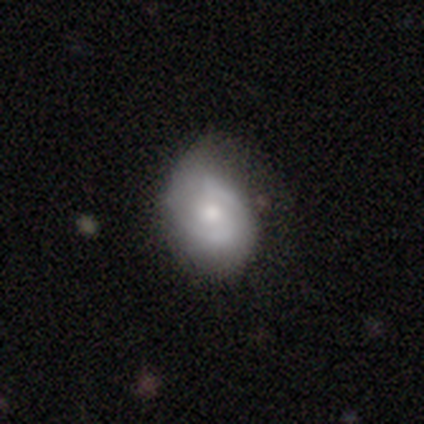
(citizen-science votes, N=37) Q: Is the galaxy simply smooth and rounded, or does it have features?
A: featured or disk — 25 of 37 (68%).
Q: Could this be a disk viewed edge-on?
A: no — 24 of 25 (96%).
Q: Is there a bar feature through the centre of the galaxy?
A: no — 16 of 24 (67%).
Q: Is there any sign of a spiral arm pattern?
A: yes — 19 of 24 (79%).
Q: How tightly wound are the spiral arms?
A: tight — 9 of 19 (47%, tied with medium).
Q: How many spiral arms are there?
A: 2 — 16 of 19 (84%).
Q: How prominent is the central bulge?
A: moderate — 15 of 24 (62%).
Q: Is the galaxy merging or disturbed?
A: none — 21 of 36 (58%).